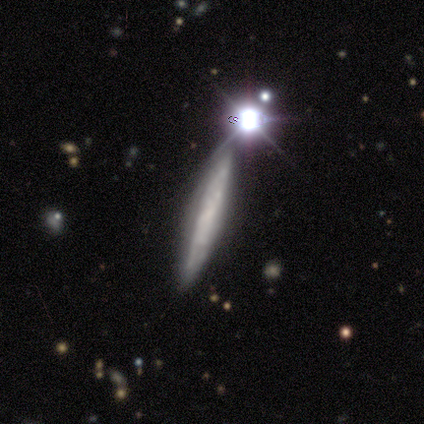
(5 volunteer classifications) smooth_or_featured: smooth (p=0.60) [alt: featured or disk p=0.20]
how_rounded: cigar-shaped (p=1.00)
merging: none (p=0.75) [alt: minor disturbance p=0.25]